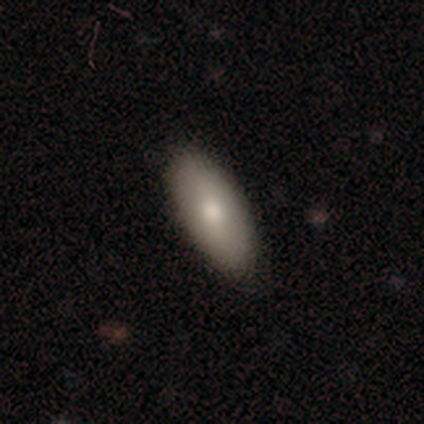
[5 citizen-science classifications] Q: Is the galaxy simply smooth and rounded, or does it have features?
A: featured or disk — 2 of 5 (40%, tied with star or artifact).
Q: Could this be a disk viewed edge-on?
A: no — 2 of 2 (100%).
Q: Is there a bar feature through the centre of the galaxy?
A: no — 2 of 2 (100%).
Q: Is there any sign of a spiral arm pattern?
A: no — 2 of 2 (100%).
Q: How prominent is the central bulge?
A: large — 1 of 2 (50%, tied with moderate).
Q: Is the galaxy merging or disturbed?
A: none — 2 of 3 (67%).